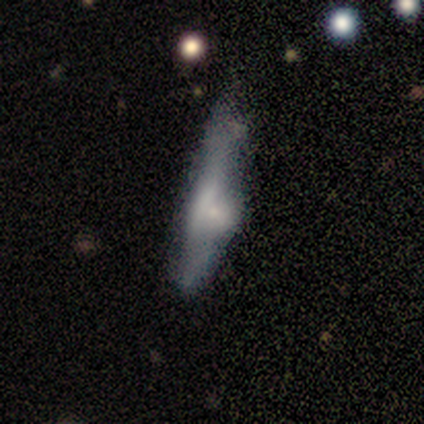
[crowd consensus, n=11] A smooth galaxy with no disk features (82%) that is cigar-shaped (67%). Merging: minor disturbance (45%).